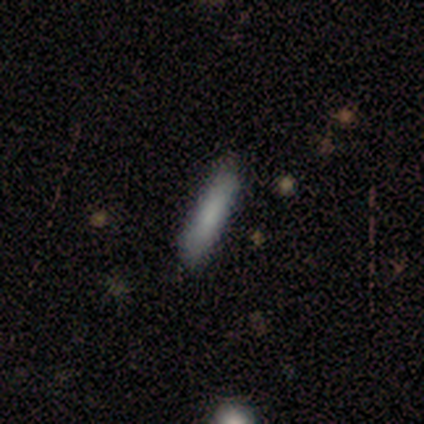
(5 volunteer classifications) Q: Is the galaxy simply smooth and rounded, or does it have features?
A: smooth — 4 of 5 (80%).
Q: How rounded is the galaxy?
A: in between — 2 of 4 (50%, tied with cigar-shaped).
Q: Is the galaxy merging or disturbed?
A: none — 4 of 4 (100%).